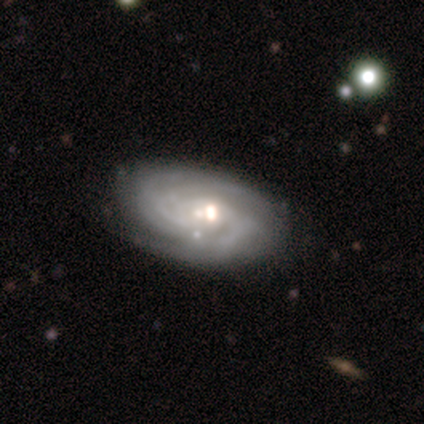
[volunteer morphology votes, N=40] This is clearly a featured or disk galaxy (90%). It is clearly not viewed edge-on (100%). Bar: possibly no (50%). Spiral arm pattern: clearly yes (100%). Spiral arm count: marginally can't tell (33%). Spiral winding: likely tight (72%). Central bulge: likely moderate (64%). Merging: clearly none (80%).